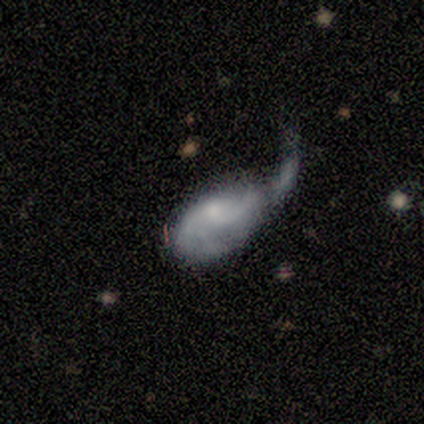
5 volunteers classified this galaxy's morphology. Overall: featured or disk (60%; smooth 40%). Edge-on disk: no (100%). Bar: no (67%; weak 33%). Spiral arms: yes (67%; no 33%). Spiral arm count: 2 (50%, tied with 3). Spiral winding: medium (50%, tied with loose). Bulge size: moderate (67%; none 33%). Merging: minor disturbance (40%; none 20%).